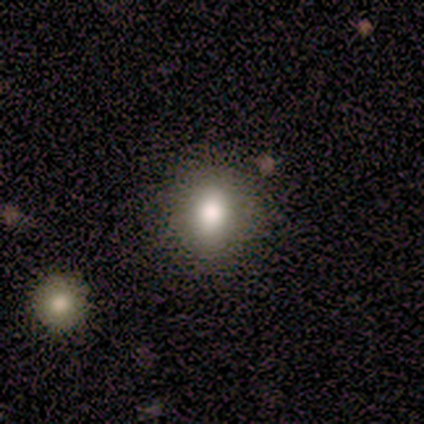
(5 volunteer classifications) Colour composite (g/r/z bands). It shows a smooth galaxy with no disk features (80%) that is round (75%). Merging: none (100%).